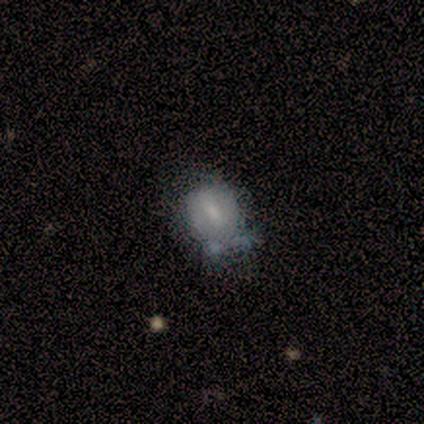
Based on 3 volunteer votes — Overall: smooth (67%; featured or disk 33%). How rounded: round (50%, tied with in between). Merging: minor disturbance (67%; none 33%).